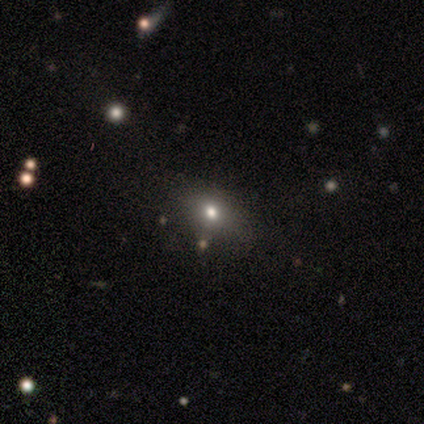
Overall: smooth (80%). How rounded: round (50%; in between 25%). Merging: none (50%; major disturbance 25%).